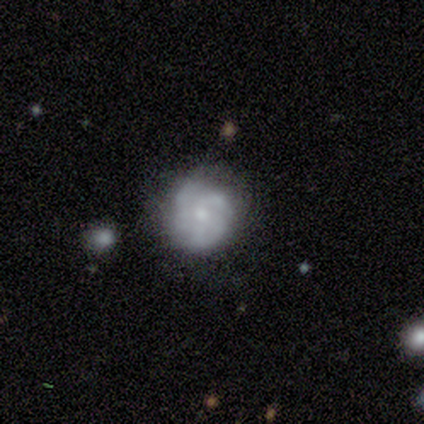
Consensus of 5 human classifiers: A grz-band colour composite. It shows a featured or disk galaxy (60%) with no bar (100%), 3 (50%, tied with can't tell) tight (50%, tied with medium) spiral arms (67%) and a small central bulge (67%). Merging: none (60%).